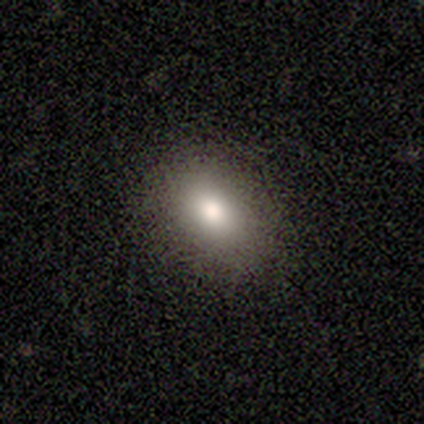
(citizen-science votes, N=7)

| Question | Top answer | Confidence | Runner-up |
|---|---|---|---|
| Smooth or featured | smooth | 86% | featured or disk (14%) |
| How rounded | in between | 100% | — |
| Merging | none | 100% | — |